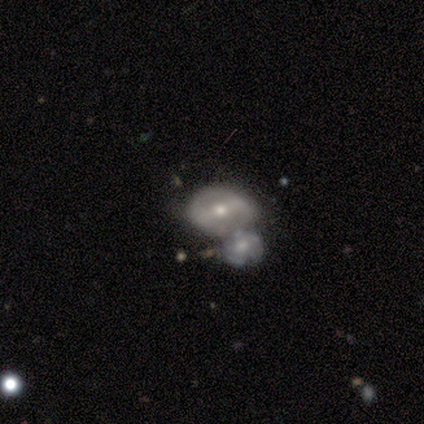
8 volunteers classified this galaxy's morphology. This appears to be a smooth galaxy with no disk features (62%) that is in between round and cigar-shaped (80%). Merging: merger (43%).